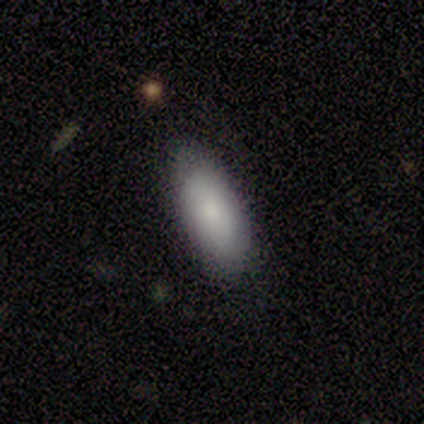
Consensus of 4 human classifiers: smooth-or-featured: smooth: 75% | star or artifact: 25% | featured or disk: 0%
  how-rounded: in between: 100% | round: 0% | cigar-shaped: 0%
  merging: none: 100% | minor disturbance: 0% | major disturbance: 0% | merger: 0%